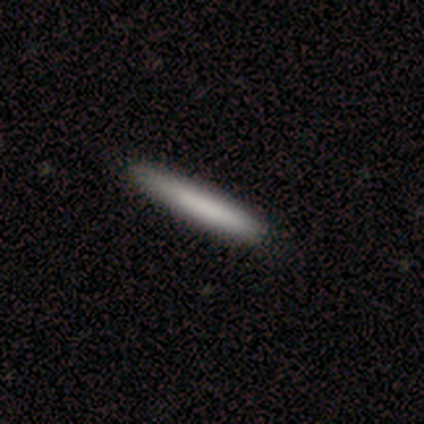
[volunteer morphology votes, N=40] smooth-or-featured: smooth: 78% | featured or disk: 20% | star or artifact: 2%
  how-rounded: cigar-shaped: 100% | round: 0% | in between: 0%
  merging: none: 69% | minor disturbance: 5% | major disturbance: 0% | merger: 0%